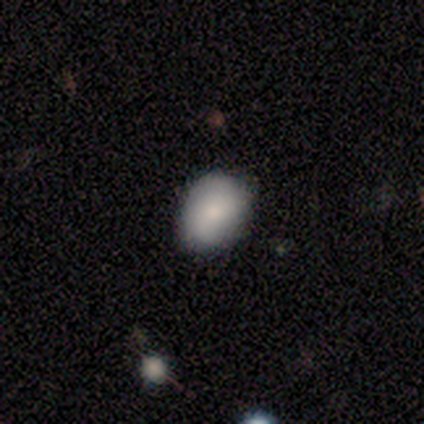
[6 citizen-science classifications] smooth 50% (tied), star or artifact 50% (tied), featured or disk 0%. Down the decision tree: how rounded — in between (67%); merging — none (100%).